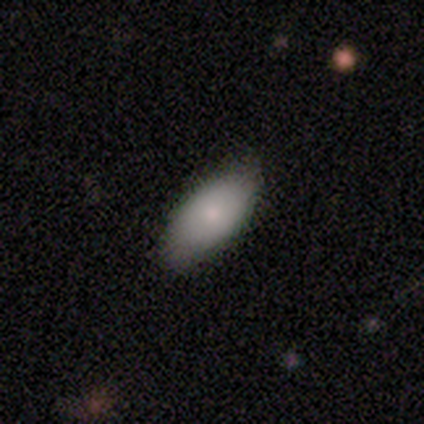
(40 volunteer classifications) smooth 90%, featured or disk 5%, star or artifact 5%. Down the decision tree: how rounded — in between (89%); merging — none (68%).